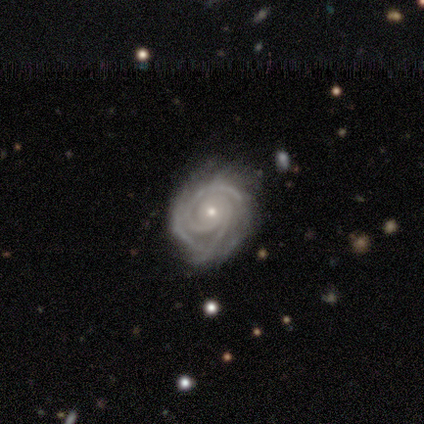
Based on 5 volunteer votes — This appears to be a featured or disk galaxy (100%) with no bar (60%), 2 (80%) tight (100%) spiral arms (100%) and a small central bulge (60%). Merging: none (100%).